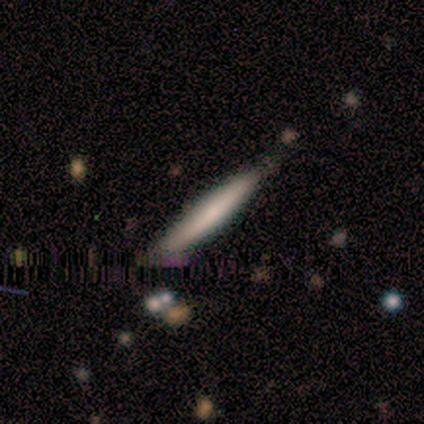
smooth 50% (tied), featured or disk 50% (tied), star or artifact 0%. Down the decision tree: how rounded — cigar-shaped (100%); merging — none (75%).